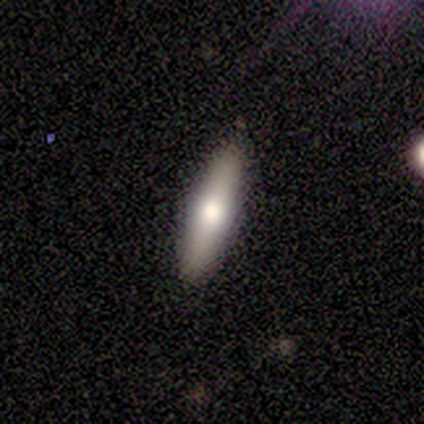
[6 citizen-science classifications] smooth-or-featured: smooth: 50% (tied) | featured or disk: 50% (tied) | star or artifact: 0%
  how-rounded: cigar-shaped: 100% | round: 0% | in between: 0%
  merging: none: 67% | minor disturbance: 33% | major disturbance: 0% | merger: 0%